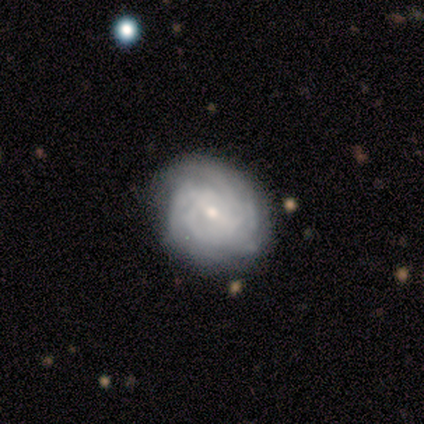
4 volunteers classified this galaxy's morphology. A featured or disk galaxy (75%) with a weak bar (67%), tight (67%) spiral arms (100%) and a small central bulge (100%). Merging: none (75%).